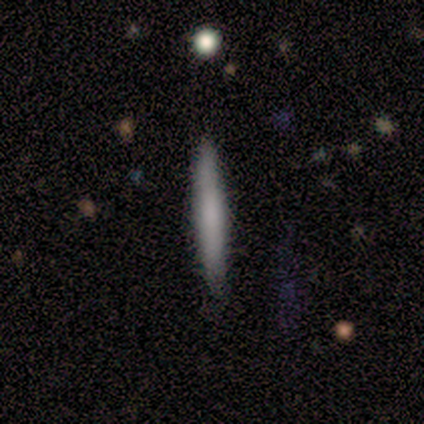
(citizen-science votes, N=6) Smooth or featured? 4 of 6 (67%) said smooth. How rounded? 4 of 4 (100%) said cigar-shaped. Merging? 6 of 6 (100%) said none.